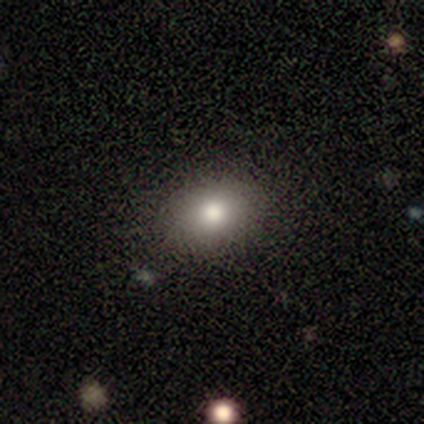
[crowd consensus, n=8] This is likely a smooth galaxy (75%). How rounded: clearly in between (83%). Merging: clearly none (100%).